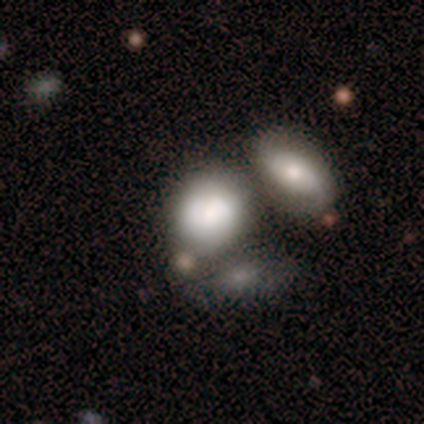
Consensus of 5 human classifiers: Smooth or featured? smooth (80%)
How rounded? in between (75%)
Merging? merger (60%)